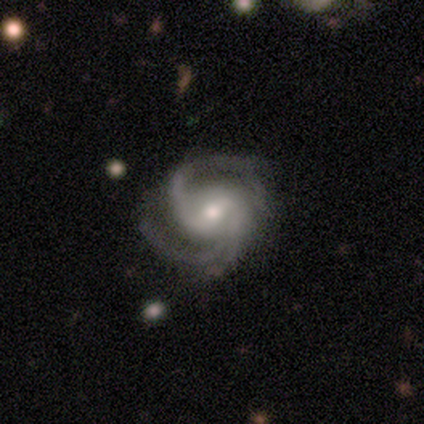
This appears to be a featured or disk galaxy (97%) with a weak bar (57%), 2 (68%) medium (54%) spiral arms (100%) and a moderate central bulge (54%). Merging: none (66%).